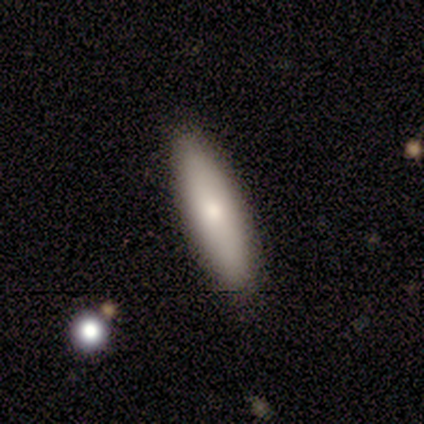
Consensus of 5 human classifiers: Volunteers were most divided on "smooth or featured": smooth: 60%, featured or disk: 40%, star or artifact: 0%. More confident: merging — none (80%); how rounded — in between (67%).